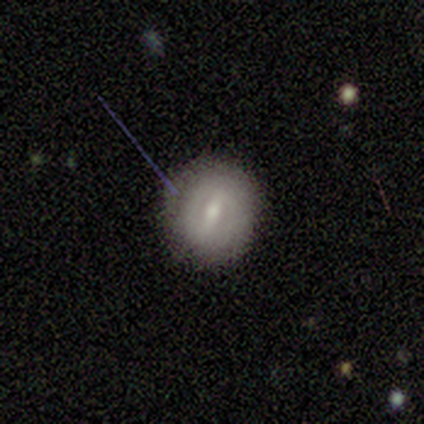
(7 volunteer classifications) Smooth or featured: featured or disk — 57% (smooth — 29%)
Edge-on disk: no — 100%
Bar: weak — 75% (strong — 25%)
Spiral arms: no — 75% (yes — 25%)
Bulge size: small — 75% (moderate — 25%)
Merging: none — 100%